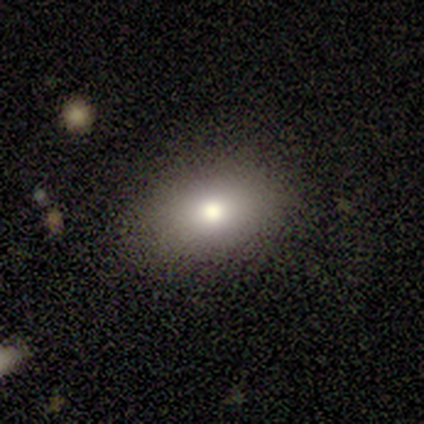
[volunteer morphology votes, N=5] smooth_or_featured: smooth (p=1.00)
how_rounded: in between (p=0.60) [alt: round p=0.40]
merging: none (p=0.80) [alt: minor disturbance p=0.20]